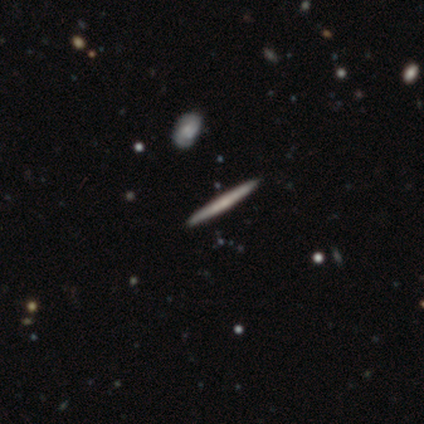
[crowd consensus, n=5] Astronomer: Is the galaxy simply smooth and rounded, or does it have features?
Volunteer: featured or disk — 60%.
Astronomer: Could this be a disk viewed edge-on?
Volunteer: yes — 100%.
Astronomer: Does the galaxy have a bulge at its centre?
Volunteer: none — 67%.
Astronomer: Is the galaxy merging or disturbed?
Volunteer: none — 100%.